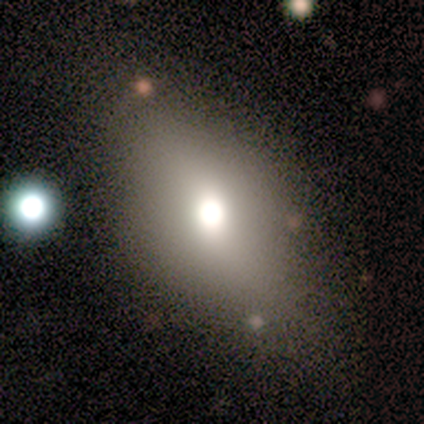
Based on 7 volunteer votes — This is possibly a smooth galaxy (57%). How rounded: possibly round (50%, tied with in between). Merging: possibly none (57%).